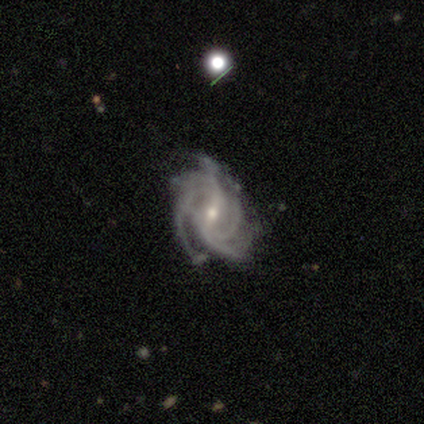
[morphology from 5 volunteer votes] smooth-or-featured: featured or disk: 80% | smooth: 20% | star or artifact: 0%
  disk-edge-on: no: 100% | yes: 0%
    bar: weak: 75% | no: 25% | strong: 0%
    has-spiral-arms: yes: 100% | no: 0%
      spiral-winding: tight: 50% (tied) | medium: 50% (tied) | loose: 0%
      spiral-arm-count: 4: 75% | 3: 25% | 1: 0% | 2: 0% | more than 4: 0% | can't tell: 0%
    bulge-size: moderate: 75% | small: 25% | dominant: 0% | large: 0% | none: 0%
  merging: none: 80% | merger: 20% | minor disturbance: 0% | major disturbance: 0%